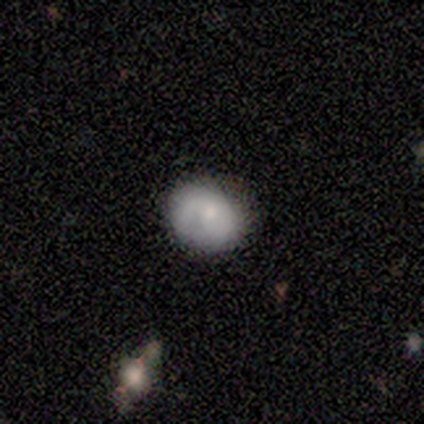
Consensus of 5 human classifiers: This is likely a smooth galaxy (60%). How rounded: likely round (67%). Merging: clearly none (80%).